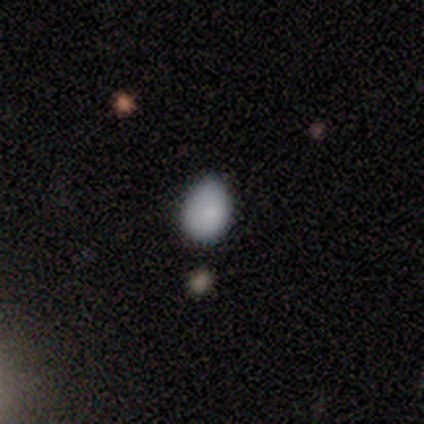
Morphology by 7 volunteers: Q: Smooth or featured?
A: smooth (100%)
Q: How rounded?
A: in between (86%); runner-up: round (14%)
Q: Merging?
A: none (57%); runner-up: minor disturbance (43%)